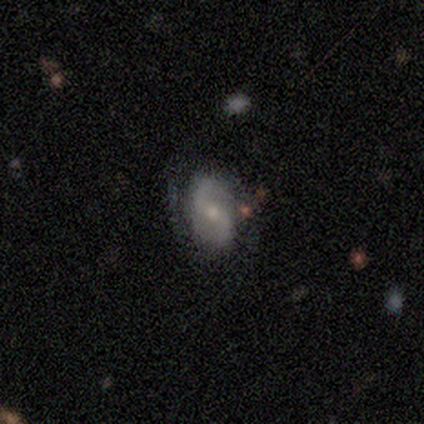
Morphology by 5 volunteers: Overall: featured or disk (80%). Edge-on disk: no (100%). Bar: strong (75%). Spiral arms: yes (100%). Spiral arm count: 2 (75%). Spiral winding: loose (75%). Bulge size: moderate (75%). Merging: none (100%).